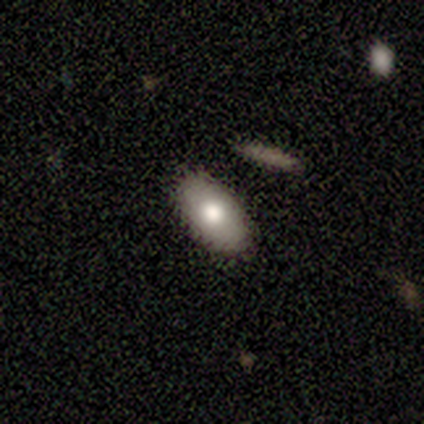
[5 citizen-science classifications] This is clearly a smooth galaxy (80%). How rounded: clearly in between (100%). Merging: clearly none (80%).